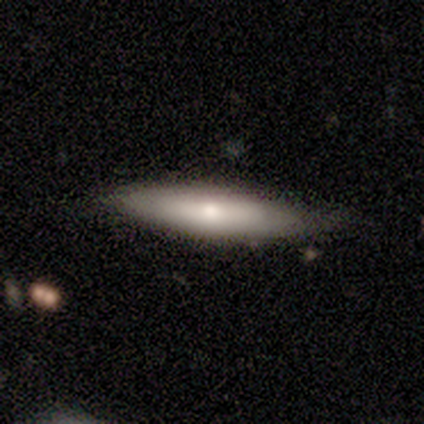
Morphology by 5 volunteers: smooth-or-featured: smooth: 80% | featured or disk: 20% | star or artifact: 0%
  how-rounded: in between: 50% (tied) | cigar-shaped: 50% (tied) | round: 0%
  merging: none: 80% | minor disturbance: 20% | major disturbance: 0% | merger: 0%